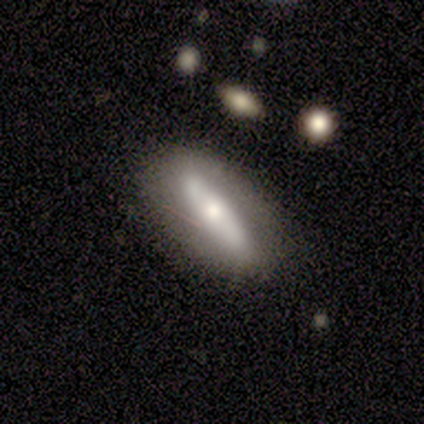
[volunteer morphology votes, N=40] This appears to be a featured or disk galaxy (55%) with a strong bar (67%), no spiral arms (80%) and a moderate central bulge (53%). Merging: none (54%).